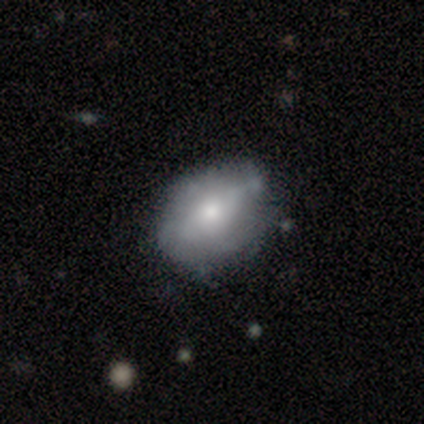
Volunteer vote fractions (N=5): smooth_or_featured: featured or disk (p=0.60) [alt: smooth p=0.20]
disk_edge_on: no (p=0.67) [alt: yes p=0.33]
bar: weak (p=0.50) [tied with: no p=0.50]
has_spiral_arms: no (p=1.00)
bulge_size: moderate (p=0.50) [tied with: small p=0.50]
merging: none (p=0.75) [alt: minor disturbance p=0.25]